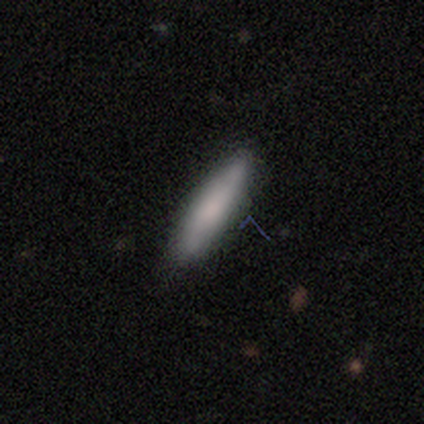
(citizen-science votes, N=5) This is clearly a smooth galaxy (100%). How rounded: clearly cigar-shaped (100%). Merging: clearly none (100%).